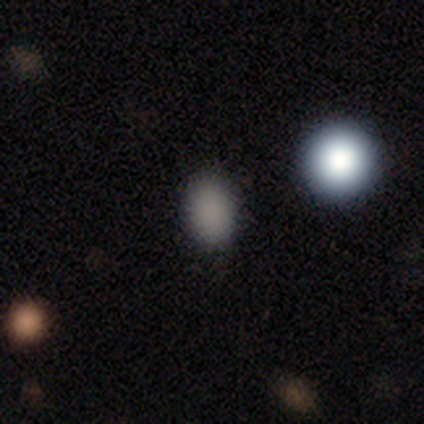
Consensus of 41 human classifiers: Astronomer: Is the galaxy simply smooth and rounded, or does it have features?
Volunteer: smooth — 88%.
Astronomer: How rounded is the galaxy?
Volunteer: in between — 69%.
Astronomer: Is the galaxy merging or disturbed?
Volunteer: none — 92%.